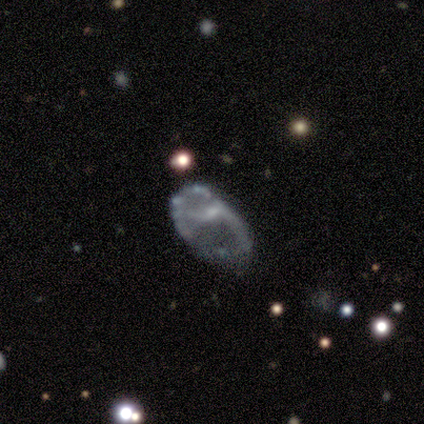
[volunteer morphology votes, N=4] type=star or artifact (50%).